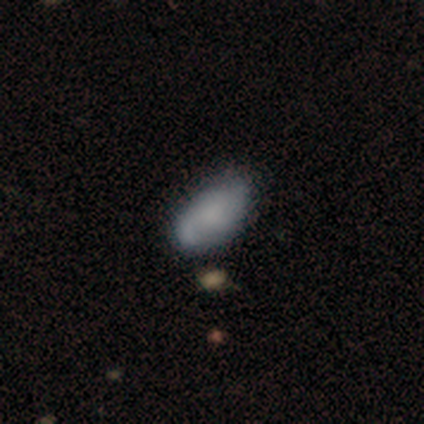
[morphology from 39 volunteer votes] smooth-or-featured: smooth: 64% | featured or disk: 31% | star or artifact: 5%
  how-rounded: in between: 88% | round: 8% | cigar-shaped: 4%
  merging: none: 59% | minor disturbance: 32% | major disturbance: 5% | merger: 3%